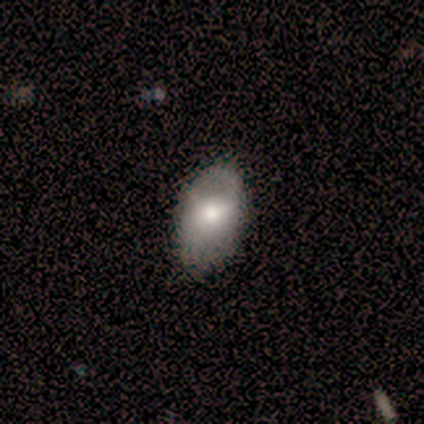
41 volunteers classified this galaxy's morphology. Smooth or featured? smooth (51%)
How rounded? in between (90%)
Merging? none (63%)